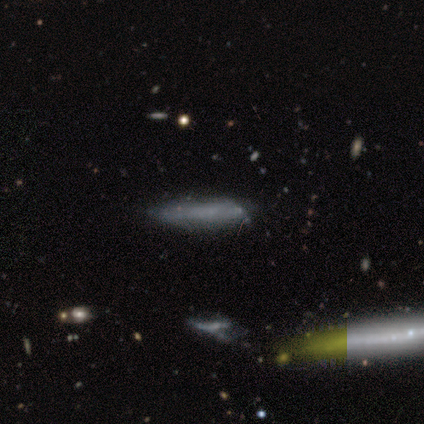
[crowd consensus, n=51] Q: Smooth or featured?
A: smooth (61%); runner-up: featured or disk (29%)
Q: How rounded?
A: cigar-shaped (81%); runner-up: in between (19%)
Q: Merging?
A: none (70%); runner-up: minor disturbance (26%)